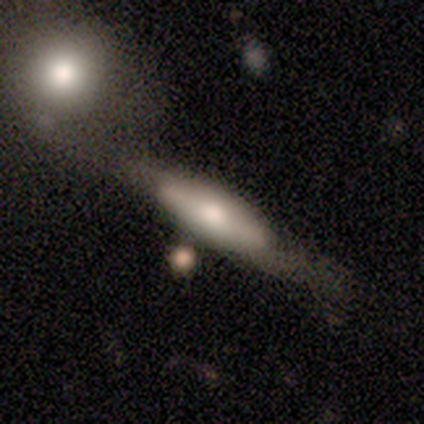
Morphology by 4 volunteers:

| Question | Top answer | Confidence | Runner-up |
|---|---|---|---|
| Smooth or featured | featured or disk | 100% | — |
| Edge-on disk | yes | 50% | tied: no (50%) |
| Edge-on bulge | rounded | 100% | — |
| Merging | none | 100% | — |